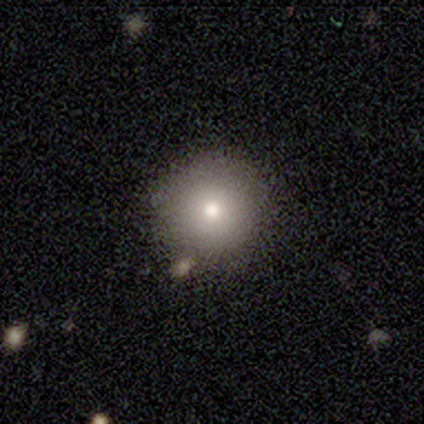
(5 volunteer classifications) A smooth galaxy with no disk features (100%) that is round (80%).

Vote fractions:
- Smooth or featured? smooth: 100% / featured or disk: 0% / star or artifact: 0%
- How rounded? round: 80% / in between: 20% / cigar-shaped: 0%
- Merging? none: 80% / minor disturbance: 20% / major disturbance: 0% / merger: 0%